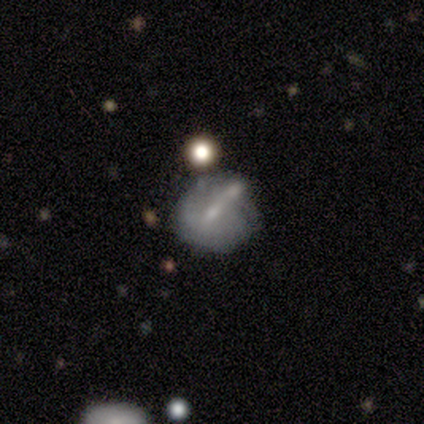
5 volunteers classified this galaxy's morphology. Smooth or featured?
  - smooth: 60% *
  - featured or disk: 20%
  - star or artifact: 20%
How rounded?
  - round: 100% *
  - in between: 0%
  - cigar-shaped: 0%
Merging?
  - none: 50% *
  - minor disturbance: 25%
  - merger: 25%
  - major disturbance: 0%